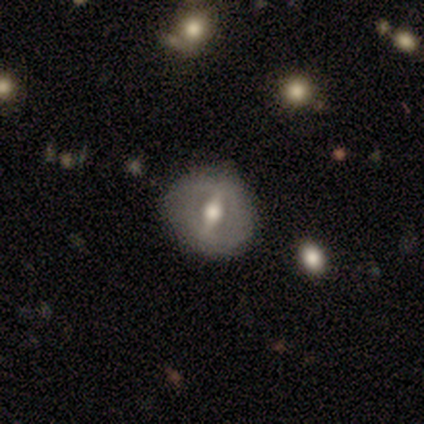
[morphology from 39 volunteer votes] Smooth or featured? 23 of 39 (59%) said featured or disk. Edge-on disk? 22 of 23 (96%) said no. Bar? 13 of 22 (59%) said strong. Spiral arms? 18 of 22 (82%) said no. Bulge size? 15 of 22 (68%) said moderate. Merging? 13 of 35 (37%) said none.